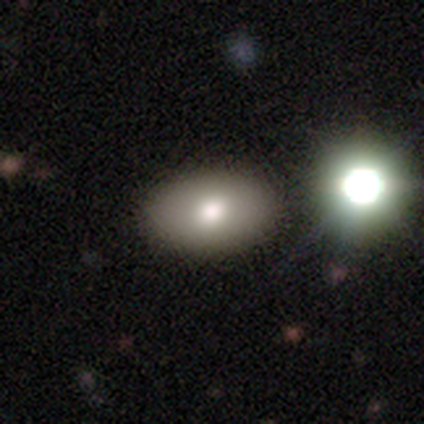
Smooth or featured: smooth — 82% (featured or disk — 12%)
How rounded: in between — 79% (round — 21%)
Merging: none — 87% (minor disturbance — 11%)